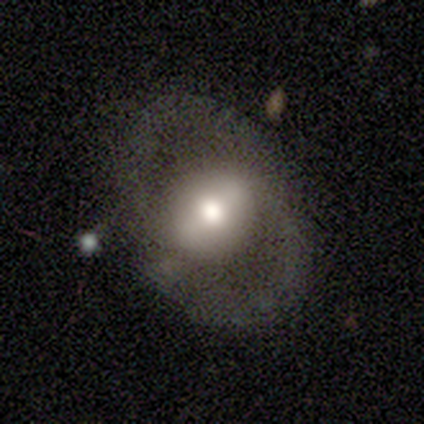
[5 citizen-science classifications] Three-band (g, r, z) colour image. It shows a featured or disk galaxy (60%) with a strong bar (33%, tied with weak and no), no spiral arms (67%) and a moderate central bulge (100%). Merging: none (60%).